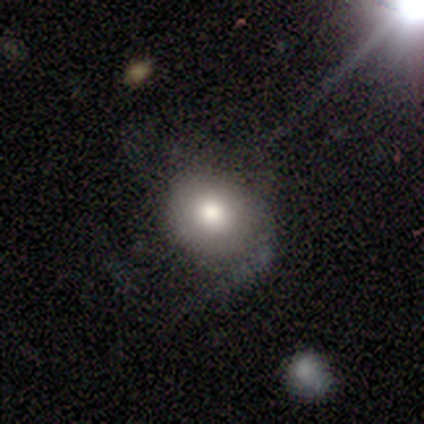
Volunteers were most divided on "how rounded": round: 67%, in between: 33%, cigar-shaped: 0%. More confident: smooth or featured — smooth (75%); merging — none (75%).